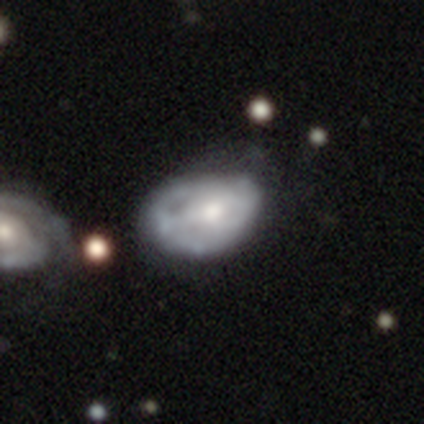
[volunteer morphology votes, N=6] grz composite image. It shows a featured or disk galaxy (100%) with no bar (67%), no spiral arms (67%) and a moderate central bulge (50%). Merging: none (50%).